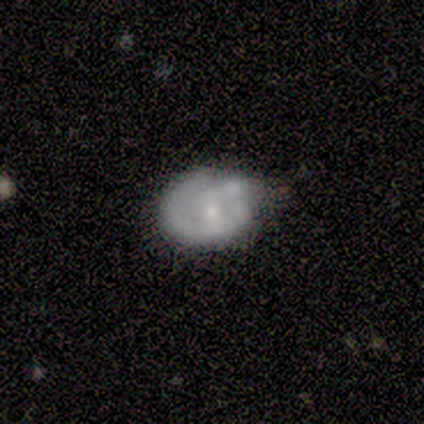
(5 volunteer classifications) Morphology: type=featured or disk (80%); edge-on=no (100%); bar=weak (100%); spiral arms=yes (50%, tied with no); winding=tight (100%); arm count=1 (50%, tied with can't tell); bulge=moderate (75%); merging=minor disturbance (40%, tied with major disturbance).